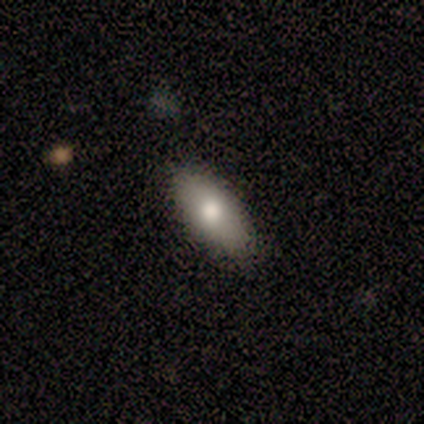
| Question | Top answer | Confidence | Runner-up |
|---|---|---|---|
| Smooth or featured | smooth | 80% | featured or disk (20%) |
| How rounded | in between | 75% | cigar-shaped (25%) |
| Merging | none | 80% | minor disturbance (20%) |